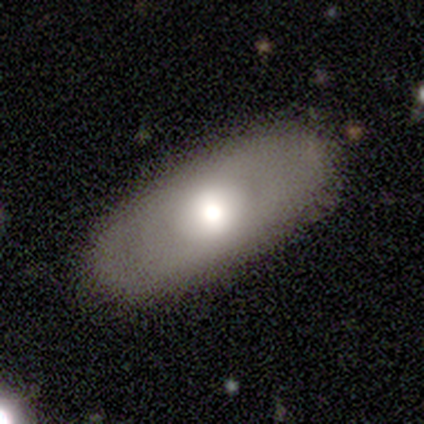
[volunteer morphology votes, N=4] Smooth or featured?
  - smooth: 50% *
  - featured or disk: 25%
  - star or artifact: 25%
How rounded?
  - in between: 100% *
  - round: 0%
  - cigar-shaped: 0%
Merging?
  - none: 67% *
  - minor disturbance: 33%
  - major disturbance: 0%
  - merger: 0%